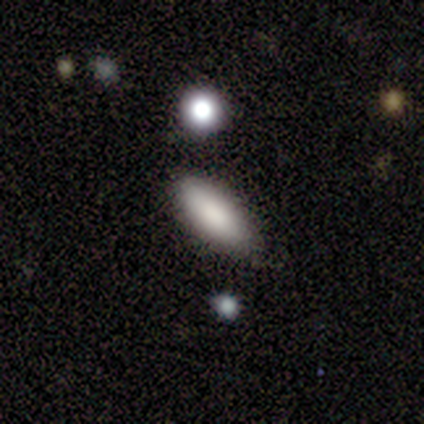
Q: Smooth or featured?
A: smooth (80%); runner-up: featured or disk (20%)
Q: How rounded?
A: in between (100%)
Q: Merging?
A: none (80%); runner-up: minor disturbance (20%)